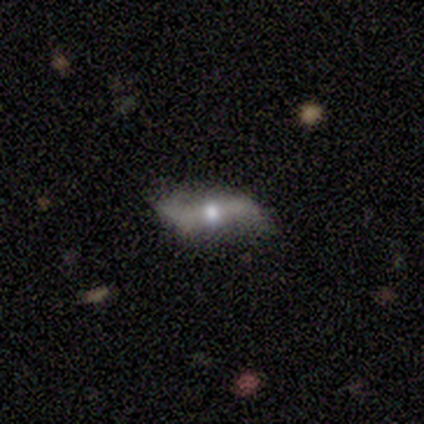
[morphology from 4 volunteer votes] smooth_or_featured: featured or disk (p=0.75) [alt: smooth p=0.25]
disk_edge_on: no (p=0.67) [alt: yes p=0.33]
bar: weak (p=0.50) [tied with: no p=0.50]
has_spiral_arms: yes (p=1.00)
spiral_winding: loose (p=1.00)
spiral_arm_count: 2 (p=1.00)
bulge_size: large (p=0.50) [tied with: moderate p=0.50]
merging: none (p=0.50) [tied with: minor disturbance p=0.50]